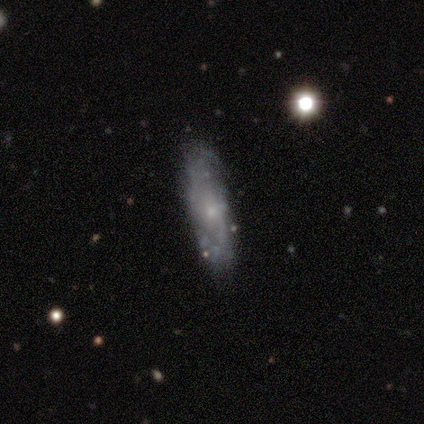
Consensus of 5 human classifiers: featured or disk 60%, smooth 40%, star or artifact 0%. Down the decision tree: edge-on disk — no (100%); bar — no (100%); spiral arms — no (67%); bulge size — small (100%); merging — none (80%).